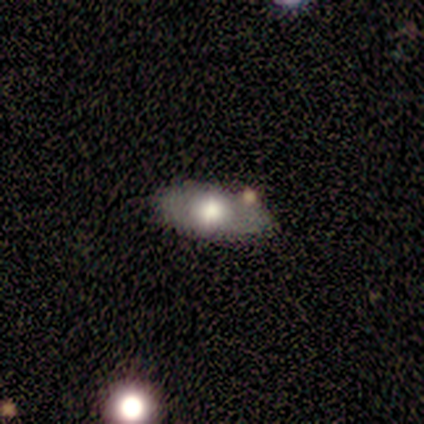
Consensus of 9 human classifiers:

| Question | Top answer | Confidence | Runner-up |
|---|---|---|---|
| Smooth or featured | smooth | 56% | featured or disk (33%) |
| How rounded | in between | 80% | cigar-shaped (20%) |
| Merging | none | 75% | minor disturbance (25%) |